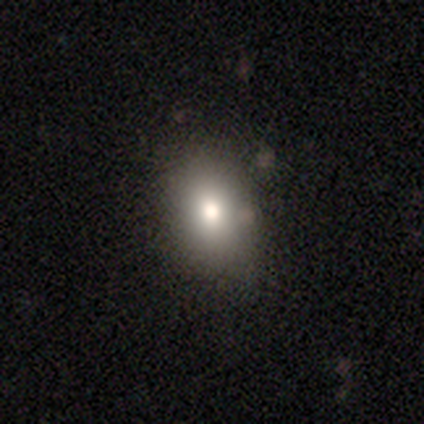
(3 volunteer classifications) Smooth or featured? 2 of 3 (67%) said featured or disk. Edge-on disk? 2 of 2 (100%) said no. Bar? 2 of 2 (100%) said no. Spiral arms? 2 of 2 (100%) said no. Bulge size? 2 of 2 (100%) said moderate. Merging? 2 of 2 (100%) said none.